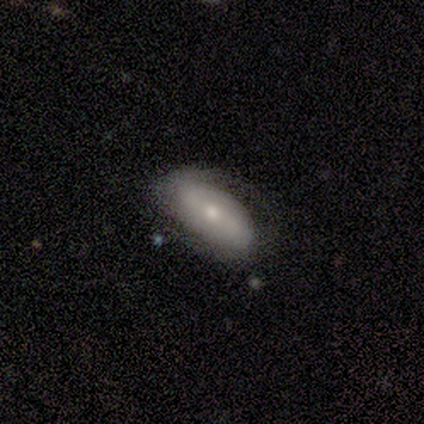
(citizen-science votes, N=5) This appears to be a featured or disk galaxy (60%) with a weak bar (67%), 1 (33%, tied with 2 and can't tell) loose (67%) spiral arms (100%) and a small central bulge (100%). Merging: none (60%).